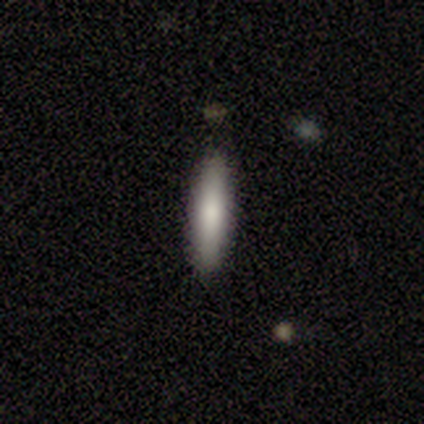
Overall: smooth (67%; featured or disk 33%). How rounded: cigar-shaped (100%). Merging: none (100%).